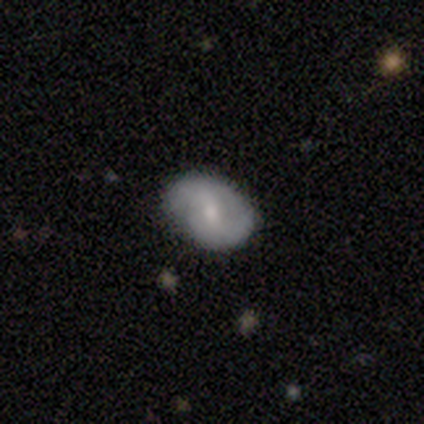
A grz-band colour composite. It shows a featured or disk galaxy (65%) with a weak bar (48%, tied with no), 2 (86%) loose (38%) spiral arms (91%) and a moderate central bulge (43%, tied with small). Merging: none (89%).